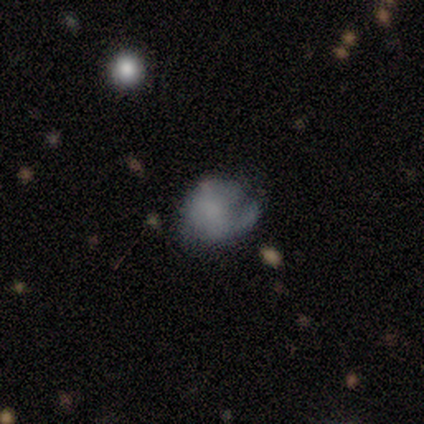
Volunteers were most divided on "smooth or featured": smooth: 75%, featured or disk: 25%, star or artifact: 0%. More confident: how rounded — in between (100%); merging — minor disturbance (100%).